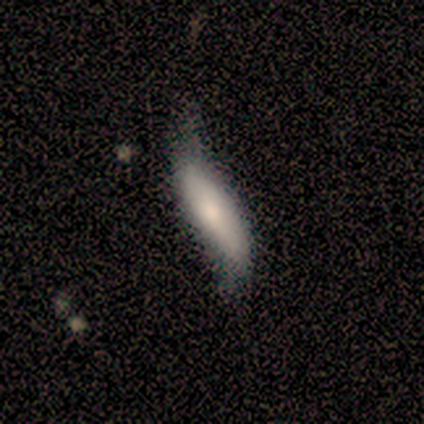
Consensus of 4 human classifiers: Morphology: type=smooth (50%); roundness=cigar-shaped (100%); merging=minor disturbance (67%).